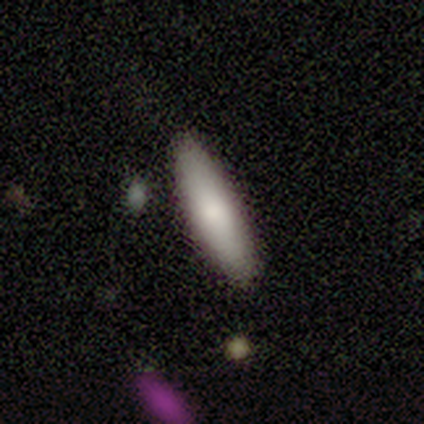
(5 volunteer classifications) smooth 80%, star or artifact 20%, featured or disk 0%. Down the decision tree: how rounded — cigar-shaped (75%); merging — none (100%).